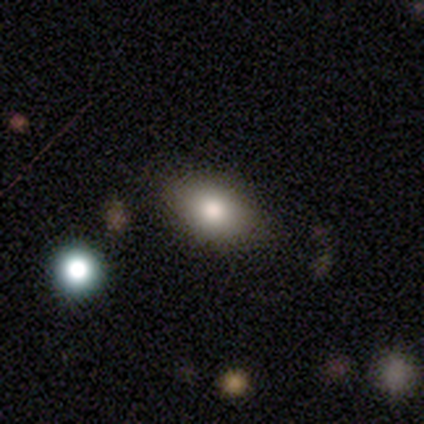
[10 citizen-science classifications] This is clearly a smooth galaxy (100%). How rounded: clearly in between (90%). Merging: clearly none (100%).